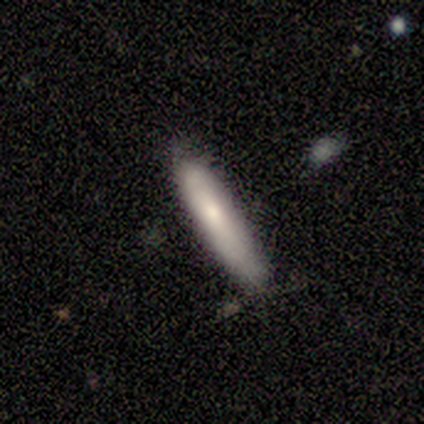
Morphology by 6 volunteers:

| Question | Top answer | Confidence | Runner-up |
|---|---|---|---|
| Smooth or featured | smooth | 67% | featured or disk (33%) |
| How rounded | cigar-shaped | 75% | in between (25%) |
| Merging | major disturbance | 50% | none (33%) |